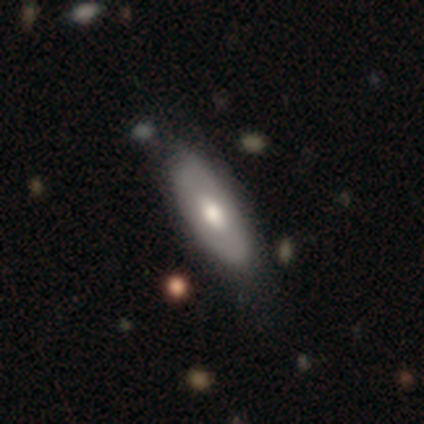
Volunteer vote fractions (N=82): Smooth or featured? 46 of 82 (56%) said smooth. How rounded? 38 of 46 (83%) said in between. Merging? 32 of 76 (42%) said none.